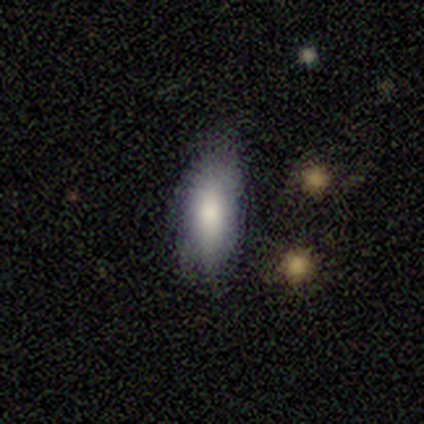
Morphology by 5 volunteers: A smooth galaxy with no disk features (80%) that is in between round and cigar-shaped (50%, tied with cigar-shaped). Merging: minor disturbance (60%).